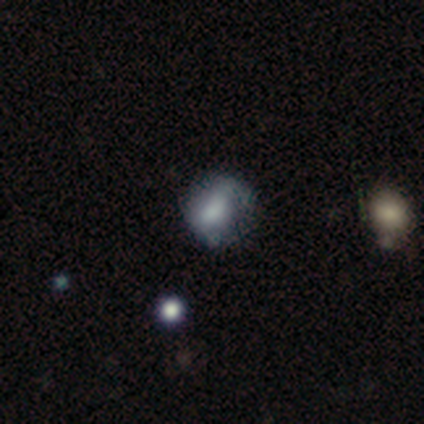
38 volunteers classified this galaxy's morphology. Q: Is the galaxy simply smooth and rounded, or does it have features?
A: smooth — 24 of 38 (63%).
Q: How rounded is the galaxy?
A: round — 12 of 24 (50%).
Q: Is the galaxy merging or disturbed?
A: none — 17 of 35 (49%).